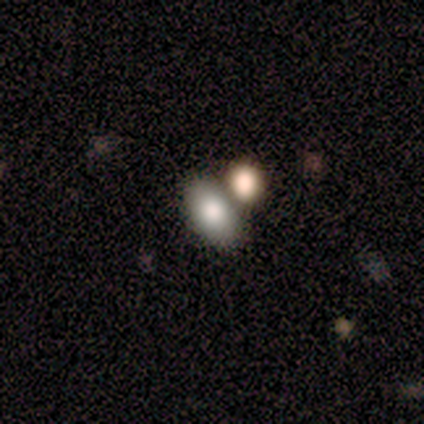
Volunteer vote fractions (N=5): smooth-or-featured: smooth: 80% | featured or disk: 20% | star or artifact: 0%
  how-rounded: in between: 75% | round: 25% | cigar-shaped: 0%
  merging: none: 80% | minor disturbance: 20% | major disturbance: 0% | merger: 0%